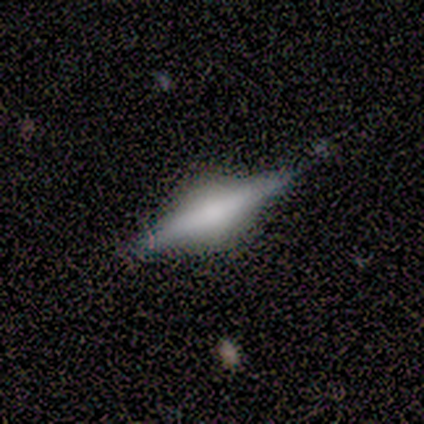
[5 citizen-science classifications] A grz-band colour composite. It shows a featured or disk galaxy (80%) viewed edge-on (100%) with a rounded central bulge (100%). Merging: none (60%).